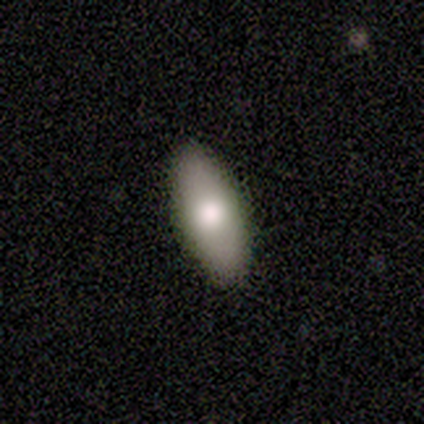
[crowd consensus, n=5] Morphology: type=smooth (100%); roundness=in between (60%); merging=none (60%).